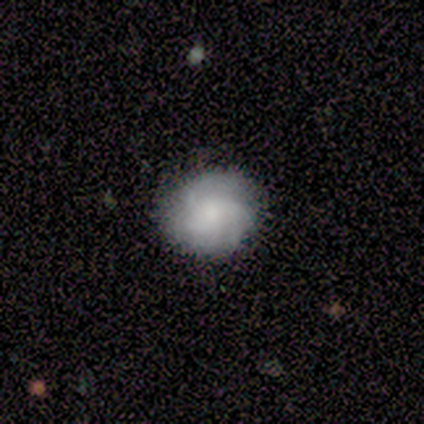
Q: Smooth or featured?
A: smooth (64%); runner-up: featured or disk (36%)
Q: How rounded?
A: in between (57%); runner-up: round (43%)
Q: Merging?
A: none (91%); runner-up: minor disturbance (9%)